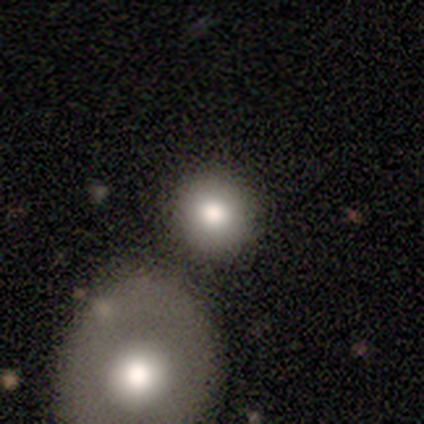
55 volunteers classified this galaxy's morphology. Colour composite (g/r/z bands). It shows a smooth galaxy with no disk features (73%) that is round (98%). Merging: none (78%).